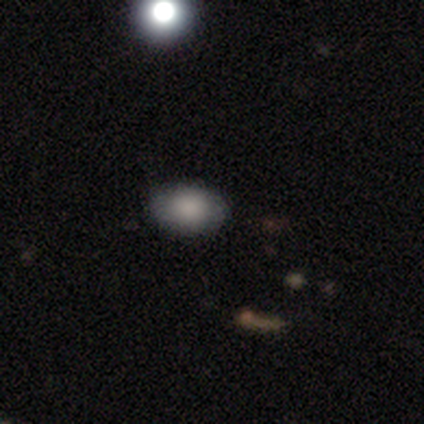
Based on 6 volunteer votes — smooth-or-featured: smooth: 50% | star or artifact: 33% | featured or disk: 17%
  how-rounded: in between: 100% | round: 0% | cigar-shaped: 0%
  merging: none: 100% | minor disturbance: 0% | major disturbance: 0% | merger: 0%